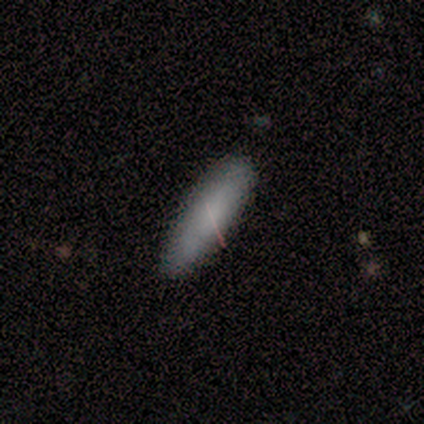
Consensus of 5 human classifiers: Smooth or featured: smooth — 80% (star or artifact — 20%)
How rounded: cigar-shaped — 75% (in between — 25%)
Merging: none — 75% (minor disturbance — 25%)